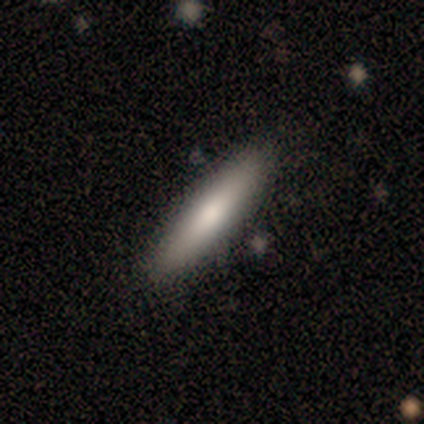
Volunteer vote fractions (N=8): smooth_or_featured: smooth (p=0.88) [alt: featured or disk p=0.12]
how_rounded: cigar-shaped (p=0.86) [alt: in between p=0.14]
merging: none (p=0.75) [alt: minor disturbance p=0.25]